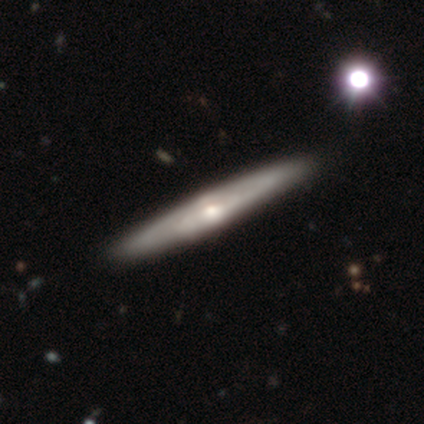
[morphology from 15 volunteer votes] Smooth or featured: featured or disk — 67% (smooth — 33%)
Edge-on disk: yes — 100%
Edge-on bulge: rounded — 90% (none — 10%)
Merging: none — 87% (minor disturbance — 13%)